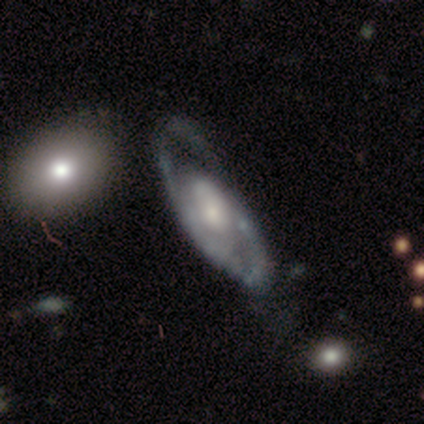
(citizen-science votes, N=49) Q: Smooth or featured?
A: featured or disk (86%); runner-up: smooth (8%)
Q: Edge-on disk?
A: no (83%); runner-up: yes (17%)
Q: Bar?
A: no (71%); runner-up: weak (20%)
Q: Spiral arms?
A: yes (63%); runner-up: no (37%)
Q: Spiral winding?
A: medium (50%); runner-up: loose (32%)
Q: Spiral arm count?
A: 2 (50%); runner-up: 1 (36%)
Q: Bulge size?
A: small (43%); runner-up: moderate (40%)
Q: Merging?
A: minor disturbance (39%); runner-up: none (35%)